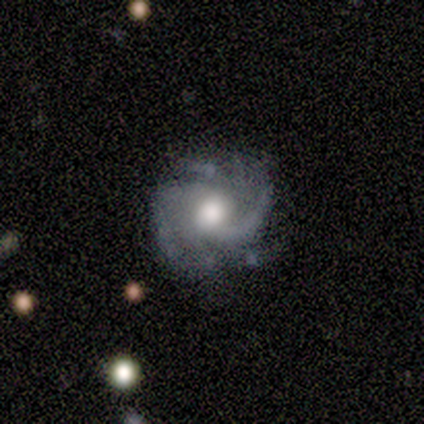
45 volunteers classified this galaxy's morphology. Smooth or featured: featured or disk — 91% (smooth — 4%)
Edge-on disk: no — 100%
Bar: no — 80% (weak — 15%)
Spiral arms: yes — 95% (no — 5%)
Spiral winding: medium — 49% (tight — 38%)
Spiral arm count: 2 — 33% (3 — 23%)
Bulge size: moderate — 63% (large — 29%)
Merging: none — 72% (minor disturbance — 16%)